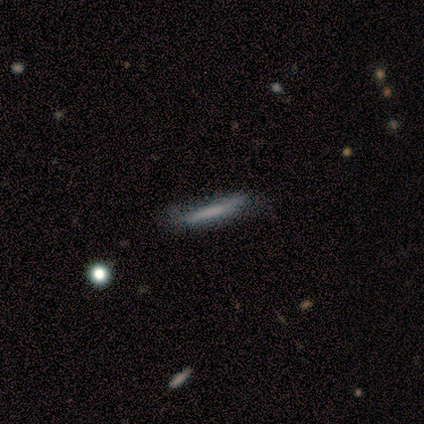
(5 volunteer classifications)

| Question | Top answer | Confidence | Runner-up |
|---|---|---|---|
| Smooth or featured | smooth | 80% | featured or disk (20%) |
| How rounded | cigar-shaped | 100% | — |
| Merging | none | 80% | minor disturbance (20%) |